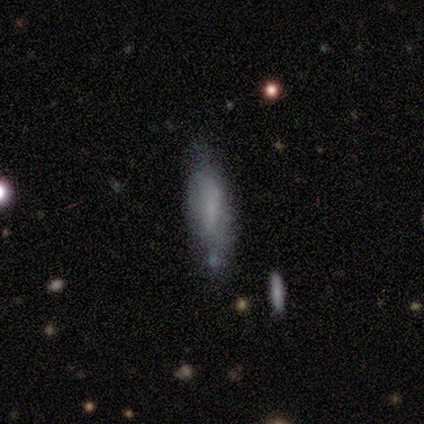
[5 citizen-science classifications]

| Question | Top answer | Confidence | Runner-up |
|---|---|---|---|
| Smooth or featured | smooth | 80% | star or artifact (20%) |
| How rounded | in between | 50% | tied: cigar-shaped (50%) |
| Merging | none | 100% | — |